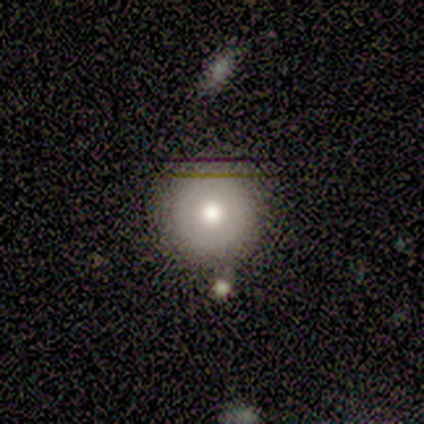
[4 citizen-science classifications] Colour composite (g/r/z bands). It shows a smooth galaxy with no disk features (75%) that is round (100%). Merging: minor disturbance (67%).